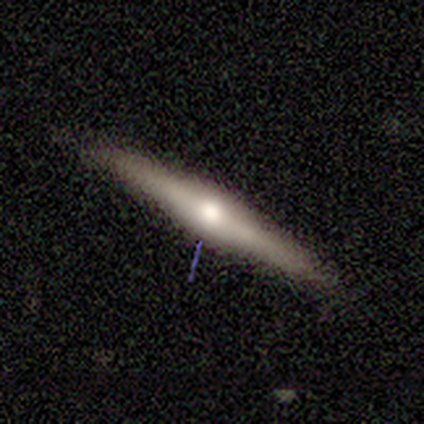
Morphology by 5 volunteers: Overall: featured or disk (80%). Edge-on disk: yes (100%). Edge-on bulge: rounded (100%). Merging: none (100%).